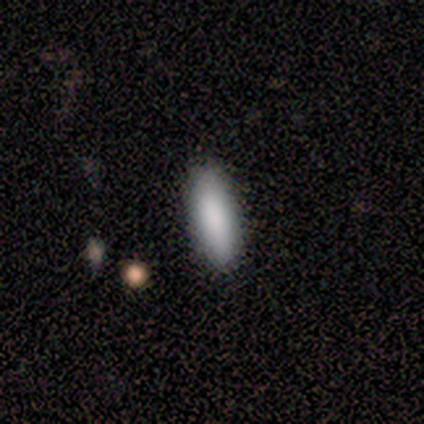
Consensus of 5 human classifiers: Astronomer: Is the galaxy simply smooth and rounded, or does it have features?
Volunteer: smooth — 80%.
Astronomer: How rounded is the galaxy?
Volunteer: in between — 75%.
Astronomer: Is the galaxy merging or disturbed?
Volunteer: none — 100%.